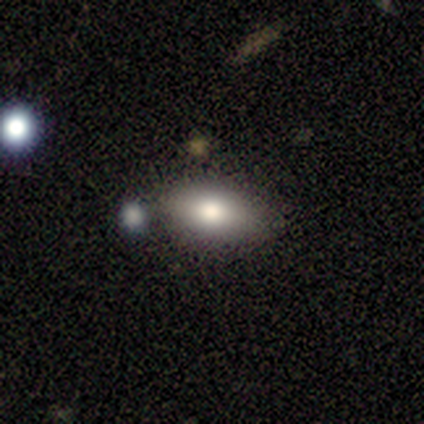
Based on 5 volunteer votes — Smooth or featured? smooth (60%)
How rounded? in between (100%)
Merging? none (75%)